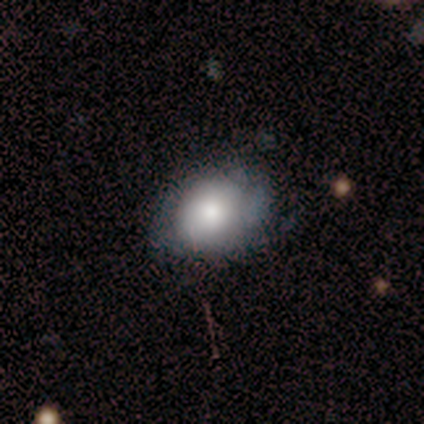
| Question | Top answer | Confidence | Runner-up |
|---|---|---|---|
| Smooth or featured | smooth | 80% | featured or disk (20%) |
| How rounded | in between | 75% | round (25%) |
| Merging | none | 80% | minor disturbance (20%) |